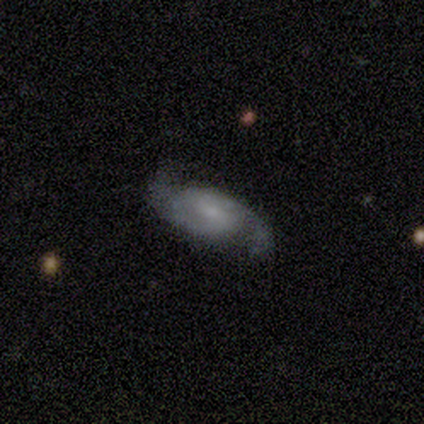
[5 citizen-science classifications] This appears to be a featured or disk galaxy (80%) with a weak bar (50%, tied with no), 2 (100%) medium (75%) spiral arms (100%) and a small central bulge (50%). Merging: none (100%).